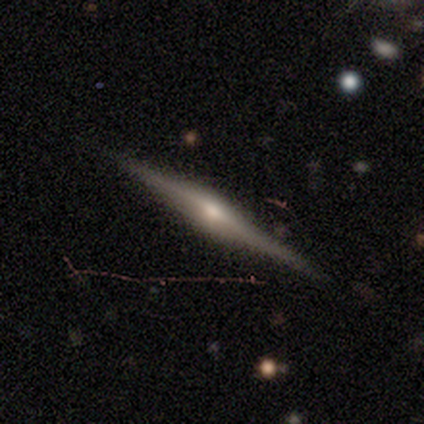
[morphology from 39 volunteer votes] smooth-or-featured: featured or disk: 90% | smooth: 10% | star or artifact: 0%
  disk-edge-on: yes: 100% | no: 0%
    edge-on-bulge: rounded: 86% | boxy: 9% | none: 6%
  merging: none: 44% | minor disturbance: 3% | major disturbance: 3% | merger: 3%